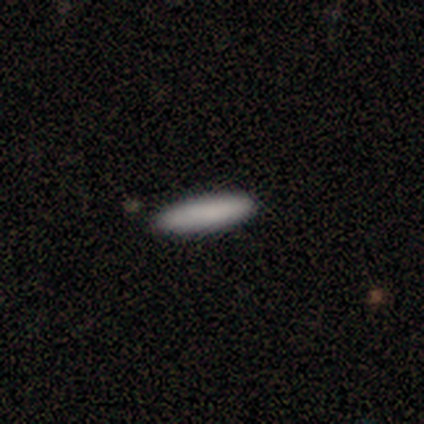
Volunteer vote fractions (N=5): smooth-or-featured: smooth: 100% | featured or disk: 0% | star or artifact: 0%
  how-rounded: in between: 60% | cigar-shaped: 40% | round: 0%
  merging: none: 80% | minor disturbance: 20% | major disturbance: 0% | merger: 0%